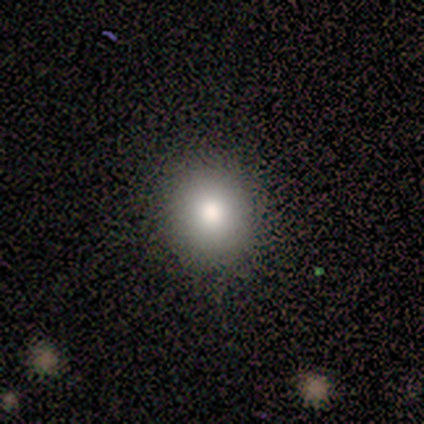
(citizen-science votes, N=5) smooth 100%, featured or disk 0%, star or artifact 0%. Down the decision tree: how rounded — round (80%); merging — none (100%).